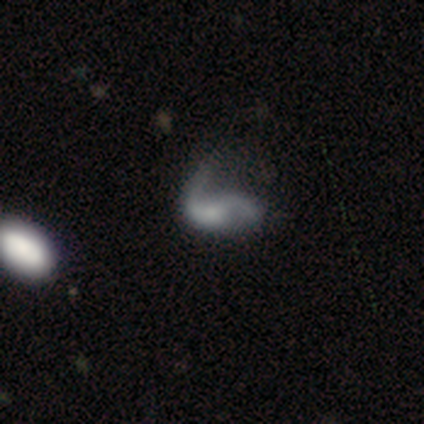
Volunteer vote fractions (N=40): Volunteers were most divided on "merging": major disturbance: 39%, none: 36%, minor disturbance: 22%, merger: 3%. Remaining: edge-on disk — no (100%); spiral arms — yes (78%); spiral winding — loose (61%); spiral arm count — 2 (61%); bar — no (61%); smooth or featured — featured or disk (57%); bulge size — none (48%).